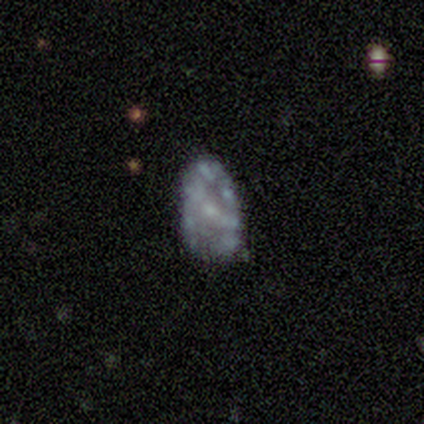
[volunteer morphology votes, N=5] This appears to be a smooth galaxy with no disk features (40%, tied with star or artifact) that is in between round and cigar-shaped (100%). Merging: none (33%, tied with minor disturbance and major disturbance).